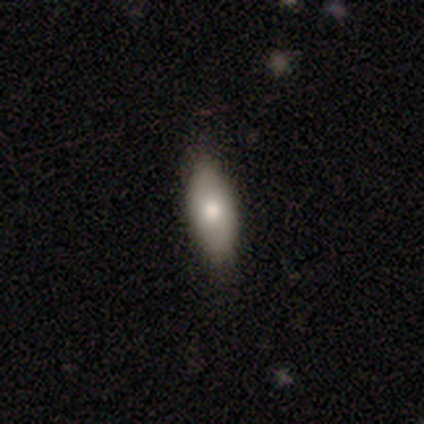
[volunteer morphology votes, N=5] Smooth or featured?
  - smooth: 40% * (tied)
  - featured or disk: 40% * (tied)
  - star or artifact: 20%
How rounded?
  - in between: 100% *
  - round: 0%
  - cigar-shaped: 0%
Merging?
  - none: 100% *
  - minor disturbance: 0%
  - major disturbance: 0%
  - merger: 0%